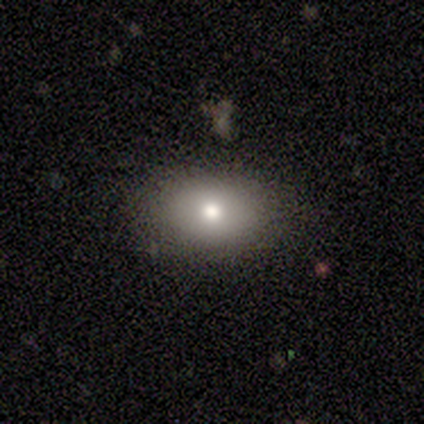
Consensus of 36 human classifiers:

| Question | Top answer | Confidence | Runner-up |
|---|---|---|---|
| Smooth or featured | smooth | 69% | featured or disk (17%) |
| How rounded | in between | 80% | round (16%) |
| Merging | none | 87% | minor disturbance (13%) |